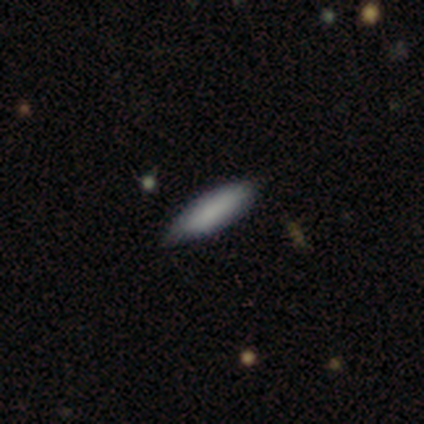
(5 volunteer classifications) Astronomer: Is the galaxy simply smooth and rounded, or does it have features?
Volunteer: smooth — 100%.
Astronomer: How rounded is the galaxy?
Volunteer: in between — 80%.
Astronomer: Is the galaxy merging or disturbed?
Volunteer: none — 80%.